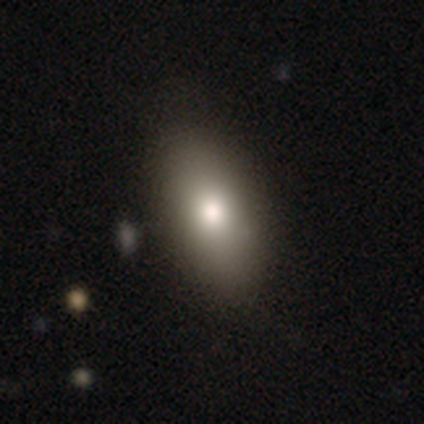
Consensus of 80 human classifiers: Q: Smooth or featured?
A: smooth (75%); runner-up: featured or disk (16%)
Q: How rounded?
A: in between (95%); runner-up: cigar-shaped (5%)
Q: Merging?
A: none (44%); runner-up: minor disturbance (7%)